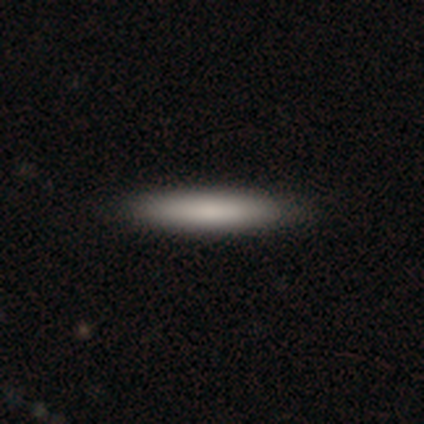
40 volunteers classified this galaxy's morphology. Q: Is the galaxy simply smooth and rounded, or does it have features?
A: smooth — 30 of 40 (75%).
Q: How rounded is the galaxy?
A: cigar-shaped — 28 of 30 (93%).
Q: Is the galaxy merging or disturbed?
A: none — 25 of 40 (62%).